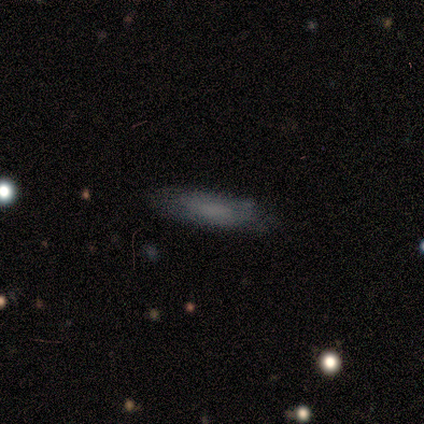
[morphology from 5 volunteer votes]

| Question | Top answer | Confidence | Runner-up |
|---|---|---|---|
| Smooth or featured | smooth | 60% | star or artifact (40%) |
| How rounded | cigar-shaped | 67% | in between (33%) |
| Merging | minor disturbance | 67% | none (33%) |